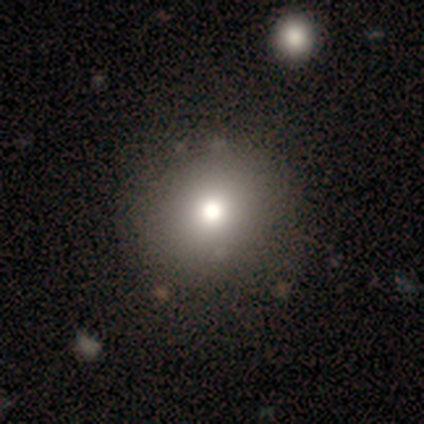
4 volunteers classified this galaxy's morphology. Smooth or featured? 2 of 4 (50%) said star or artifact.